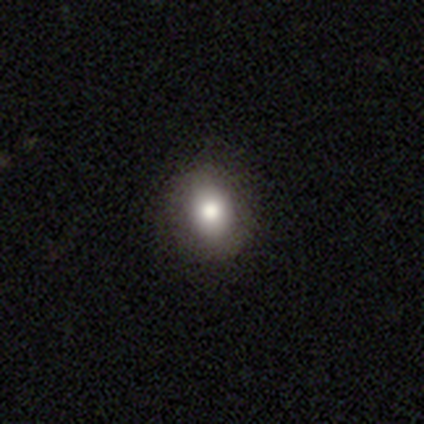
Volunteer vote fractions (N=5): smooth_or_featured: smooth (p=1.00)
how_rounded: round (p=0.60) [alt: in between p=0.40]
merging: none (p=1.00)